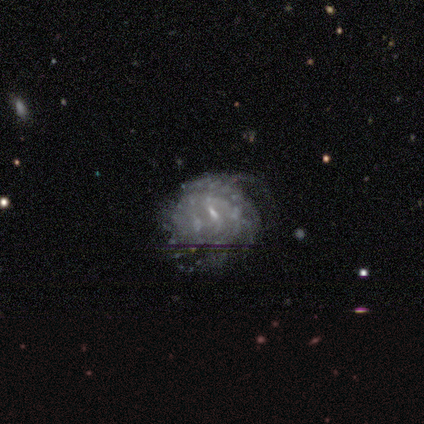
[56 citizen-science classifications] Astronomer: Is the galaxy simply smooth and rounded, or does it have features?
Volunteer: featured or disk — 89%.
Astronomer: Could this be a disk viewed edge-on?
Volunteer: no — 98%.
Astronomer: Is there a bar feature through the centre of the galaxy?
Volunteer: weak — 61%.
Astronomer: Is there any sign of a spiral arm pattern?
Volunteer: yes — 80%.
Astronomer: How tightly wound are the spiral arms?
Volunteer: tight — 62%.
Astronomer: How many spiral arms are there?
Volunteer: can't tell — 54%.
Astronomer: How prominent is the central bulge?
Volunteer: small — 67%.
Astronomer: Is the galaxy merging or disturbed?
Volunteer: none — 52% (runner-up: minor disturbance, 31%).